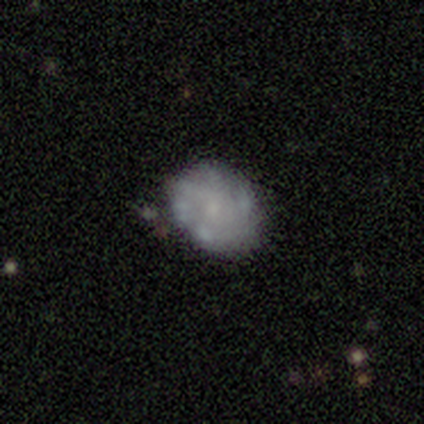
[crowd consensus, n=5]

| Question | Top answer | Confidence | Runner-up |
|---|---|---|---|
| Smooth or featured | featured or disk | 60% | smooth (40%) |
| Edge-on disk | no | 100% | — |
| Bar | no | 100% | — |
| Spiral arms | no | 67% | yes (33%) |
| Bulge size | small | 100% | — |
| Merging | none | 60% | major disturbance (20%) |